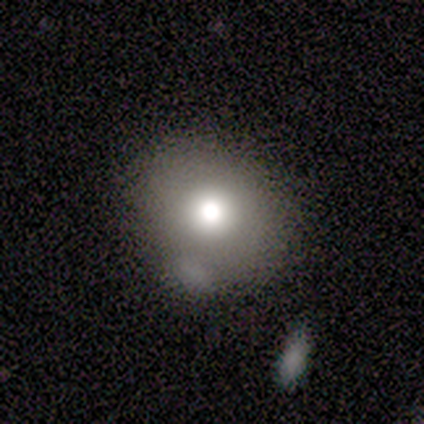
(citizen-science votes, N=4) smooth-or-featured: smooth: 100% | featured or disk: 0% | star or artifact: 0%
  how-rounded: round: 75% | in between: 25% | cigar-shaped: 0%
  merging: none: 75% | minor disturbance: 25% | major disturbance: 0% | merger: 0%